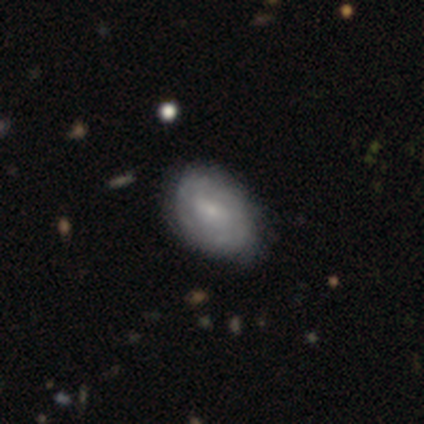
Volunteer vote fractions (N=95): This is possibly a featured or disk galaxy (52%). It is clearly not viewed edge-on (94%). Bar: possibly no (54%). Spiral arm pattern: possibly yes (50%, tied with no). Spiral arm count: likely can't tell (65%). Spiral winding: possibly tight (52%). Central bulge: likely small (76%). Merging: likely none (76%).